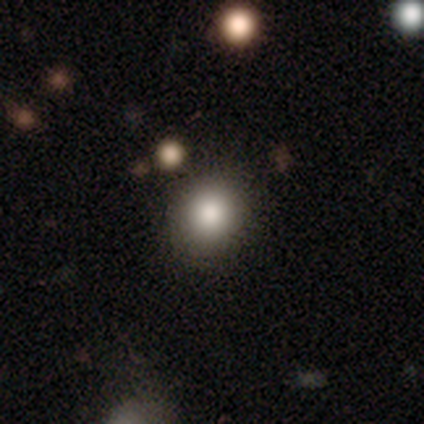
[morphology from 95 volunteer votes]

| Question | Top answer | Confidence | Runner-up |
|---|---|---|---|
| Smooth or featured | smooth | 82% | star or artifact (11%) |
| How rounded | round | 86% | in between (14%) |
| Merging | none | 91% | minor disturbance (9%) |